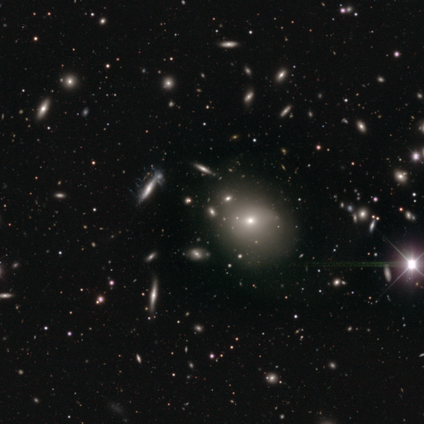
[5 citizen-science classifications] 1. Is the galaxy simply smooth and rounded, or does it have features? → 60% star or artifact, 20% smooth, 20% featured or disk.